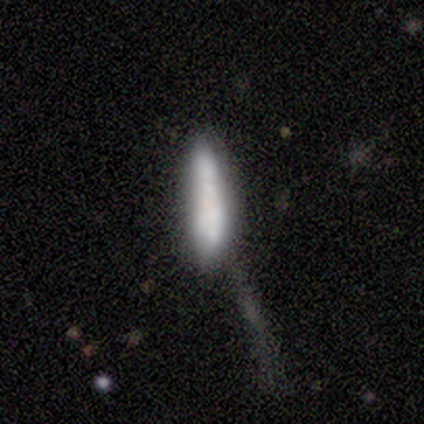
smooth-or-featured: smooth: 50% | featured or disk: 25% | star or artifact: 25%
  how-rounded: in between: 50% (tied) | cigar-shaped: 50% (tied) | round: 0%
  merging: minor disturbance: 33% (tied) | major disturbance: 33% (tied) | merger: 33% (tied) | none: 0%